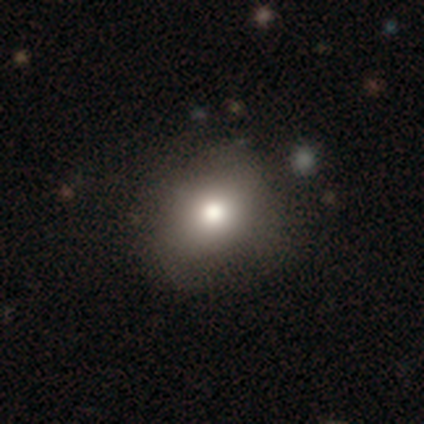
This is clearly a smooth galaxy (82%). How rounded: likely round (70%). Merging: likely none (78%).